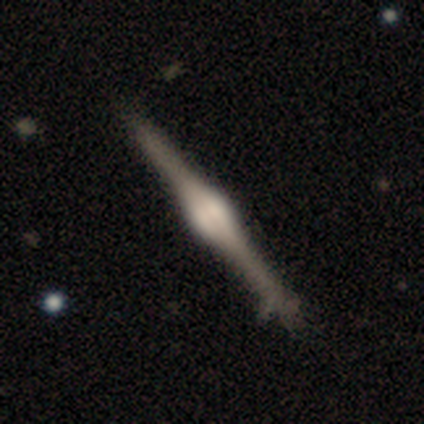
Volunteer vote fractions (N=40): Morphology: type=featured or disk (92%); edge-on=yes (100%); edge-on bulge=rounded (81%); merging=none (48%).